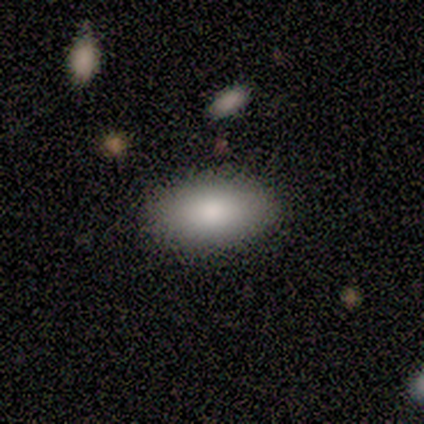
A smooth galaxy with no disk features (100%) that is in between round and cigar-shaped (100%). Merging: none (67%).